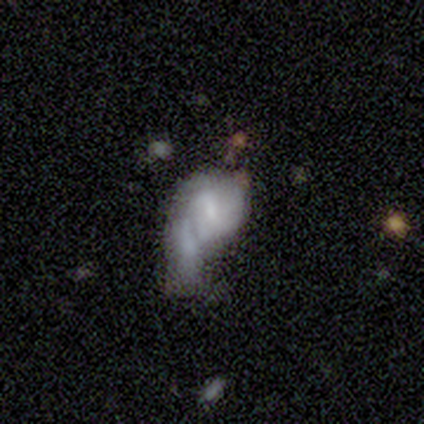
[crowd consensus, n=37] This appears to be a smooth galaxy with no disk features (54%) that is in between round and cigar-shaped (75%). Merging: major disturbance (39%).